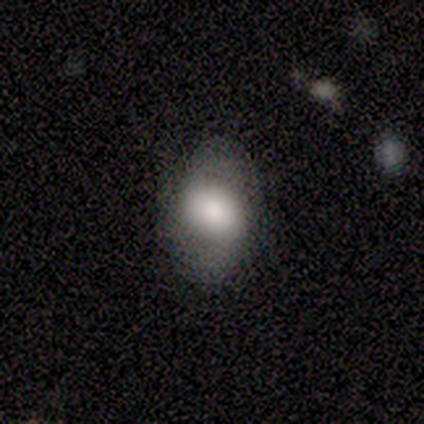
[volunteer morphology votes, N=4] smooth_or_featured: smooth (p=0.50) [tied with: featured or disk p=0.50]
how_rounded: round (p=0.50) [tied with: in between p=0.50]
merging: none (p=1.00)